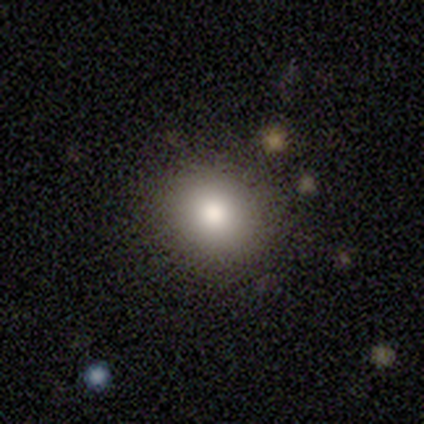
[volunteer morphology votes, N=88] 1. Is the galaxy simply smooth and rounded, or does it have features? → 77% smooth, 16% star or artifact, 7% featured or disk.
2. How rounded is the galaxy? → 76% round, 24% in between, 0% cigar-shaped.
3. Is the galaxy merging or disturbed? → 91% none, 7% minor disturbance, 3% major disturbance, 0% merger.